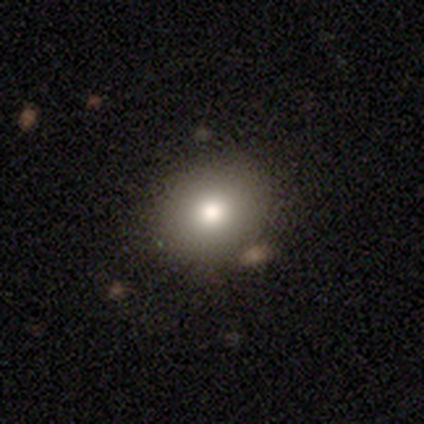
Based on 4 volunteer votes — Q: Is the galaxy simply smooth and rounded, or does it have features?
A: smooth — 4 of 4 (100%).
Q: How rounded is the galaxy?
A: round — 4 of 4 (100%).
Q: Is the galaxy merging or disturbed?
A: none — 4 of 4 (100%).